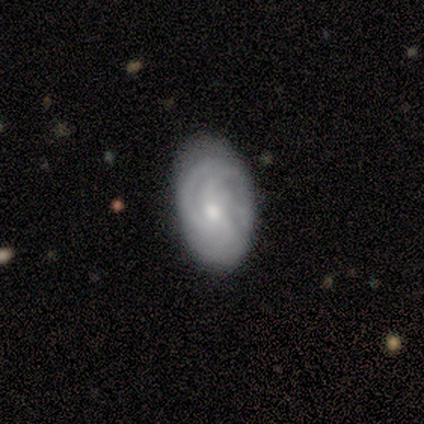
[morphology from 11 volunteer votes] This is clearly a featured or disk galaxy (91%). It is clearly not viewed edge-on (100%). Bar: likely no (70%). Spiral arm pattern: clearly yes (100%). Spiral arm count: marginally 3 (30%, tied with can't tell). Spiral winding: likely tight (60%). Central bulge: likely small (60%). Merging: possibly none (55%).